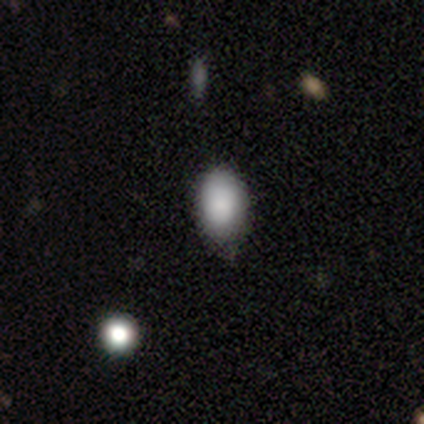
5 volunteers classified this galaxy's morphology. smooth 80%, featured or disk 20%, star or artifact 0%. Down the decision tree: how rounded — in between (100%); merging — minor disturbance (80%).